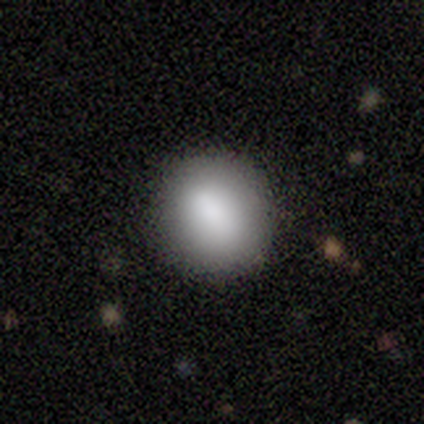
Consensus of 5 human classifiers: Volunteers were most divided on "how rounded": round: 80%, in between: 20%, cigar-shaped: 0%. More confident: smooth or featured — smooth (100%); merging — none (80%).